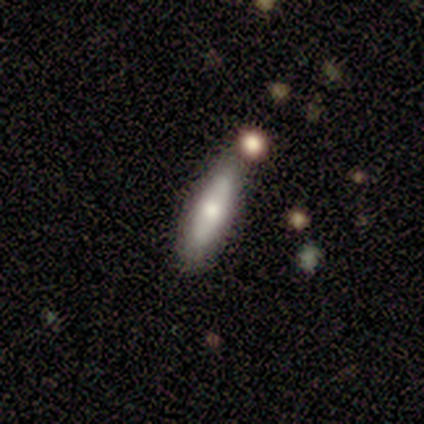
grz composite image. It shows a featured or disk galaxy (60%) viewed edge-on (67%) with no central bulge (50%, tied with rounded). Merging: none (80%).